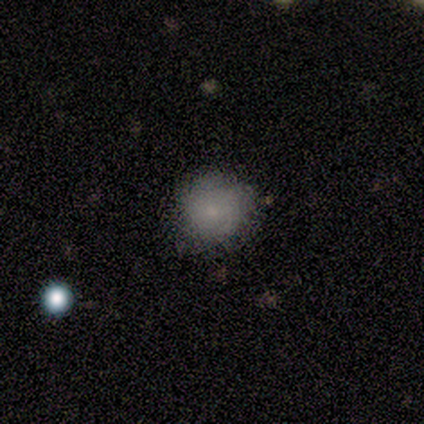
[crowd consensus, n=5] Smooth or featured?
  - smooth: 100% *
  - featured or disk: 0%
  - star or artifact: 0%
How rounded?
  - round: 100% *
  - in between: 0%
  - cigar-shaped: 0%
Merging?
  - none: 80% *
  - minor disturbance: 20%
  - major disturbance: 0%
  - merger: 0%